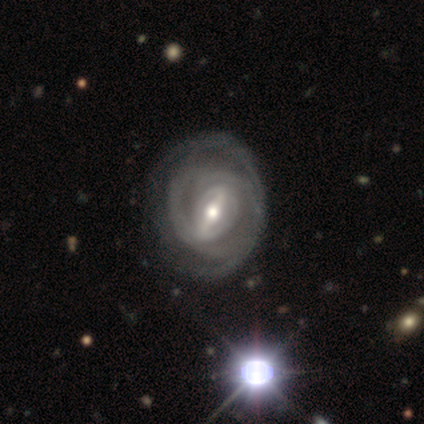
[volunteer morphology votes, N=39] featured or disk 74%, smooth 15%, star or artifact 10%. Down the decision tree: edge-on disk — no (97%); bar — strong (68%); spiral arms — yes (82%); spiral arm count — can't tell (61%); spiral winding — tight (61%); bulge size — moderate (54%); merging — none (69%).